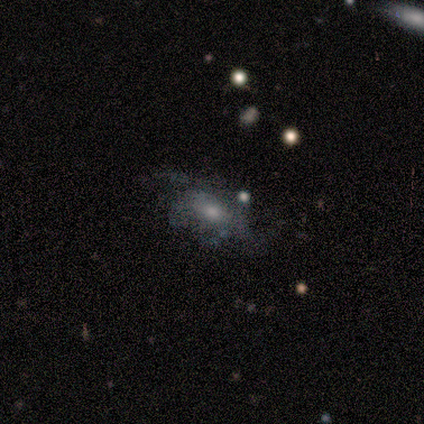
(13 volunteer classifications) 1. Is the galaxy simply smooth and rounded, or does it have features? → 62% featured or disk, 31% smooth, 8% star or artifact.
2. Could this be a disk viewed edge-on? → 100% no, 0% yes.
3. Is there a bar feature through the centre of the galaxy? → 62% no, 25% weak, 12% strong.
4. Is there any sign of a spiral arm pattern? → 75% yes, 25% no.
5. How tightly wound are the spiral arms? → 67% loose, 17% tight, 17% medium.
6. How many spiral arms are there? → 33% 2 (tied), 33% can't tell (tied), 17% 1, 17% 3, 0% 4, 0% more than 4.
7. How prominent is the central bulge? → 50% small, 25% moderate, 12% dominant, 12% none, 0% large.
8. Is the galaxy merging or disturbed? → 58% none, 25% major disturbance, 17% minor disturbance, 0% merger.